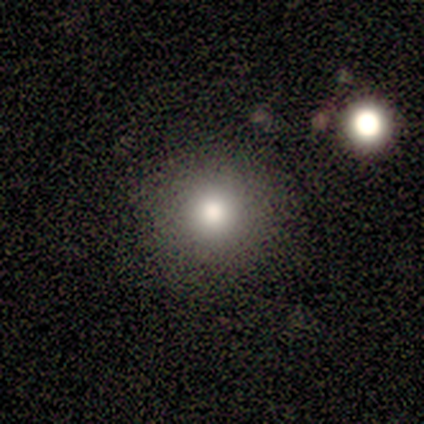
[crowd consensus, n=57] Overall: smooth (81%). How rounded: round (93%). Merging: none (94%).